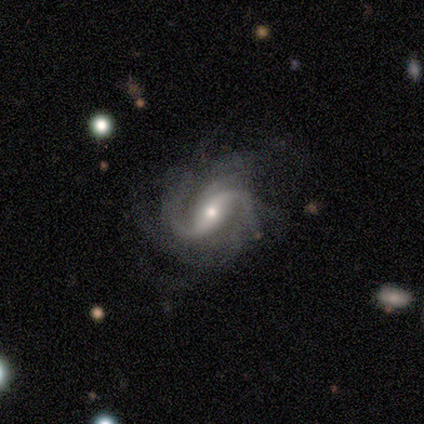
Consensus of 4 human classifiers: Q: Smooth or featured?
A: featured or disk (100%)
Q: Edge-on disk?
A: no (100%)
Q: Bar?
A: strong (75%); runner-up: weak (25%)
Q: Spiral arms?
A: yes (100%)
Q: Spiral winding?
A: medium (100%)
Q: Spiral arm count?
A: 2 (50%); runner-up: 3 (25%)
Q: Bulge size?
A: small (75%); runner-up: moderate (25%)
Q: Merging?
A: none (75%); runner-up: minor disturbance (25%)